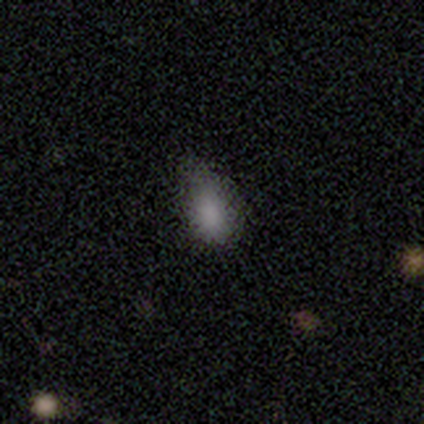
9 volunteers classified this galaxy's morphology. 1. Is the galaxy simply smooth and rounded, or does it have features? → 100% smooth, 0% featured or disk, 0% star or artifact.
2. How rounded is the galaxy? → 100% in between, 0% round, 0% cigar-shaped.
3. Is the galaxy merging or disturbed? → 56% none, 44% minor disturbance, 0% major disturbance, 0% merger.